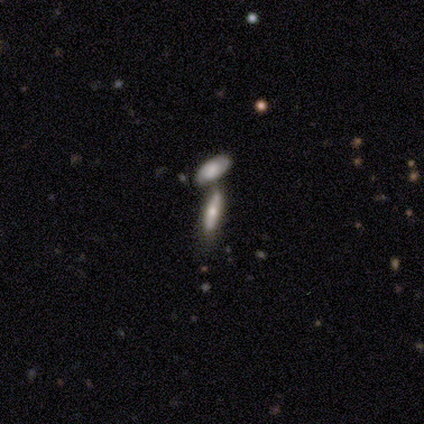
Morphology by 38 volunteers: A smooth galaxy with no disk features (45%) that is cigar-shaped (65%). Merging: merger (48%).